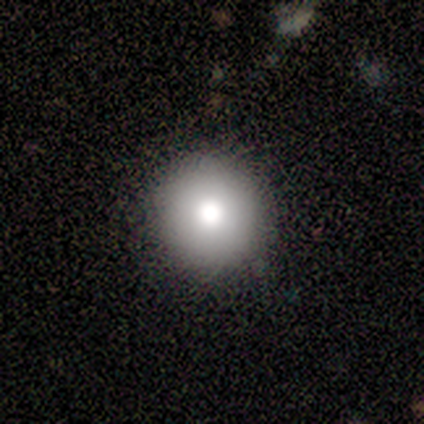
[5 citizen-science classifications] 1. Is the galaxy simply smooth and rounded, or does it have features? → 100% smooth, 0% featured or disk, 0% star or artifact.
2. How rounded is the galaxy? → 100% round, 0% in between, 0% cigar-shaped.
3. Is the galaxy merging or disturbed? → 100% none, 0% minor disturbance, 0% major disturbance, 0% merger.